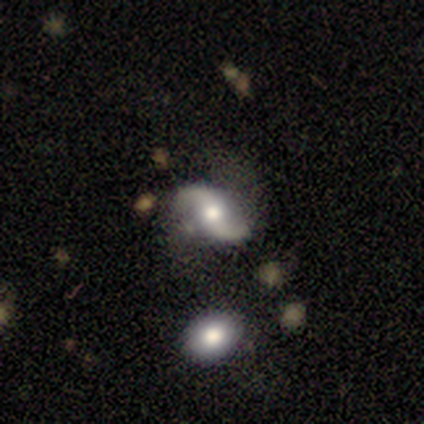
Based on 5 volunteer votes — Smooth or featured: featured or disk — 100%
Edge-on disk: no — 80% (yes — 20%)
Bar: weak — 50% (tied with no — 50%)
Spiral arms: yes — 100%
Spiral winding: medium — 50% (tied with loose — 50%)
Spiral arm count: 2 — 75% (1 — 25%)
Bulge size: moderate — 75% (small — 25%)
Merging: none — 80% (minor disturbance — 20%)